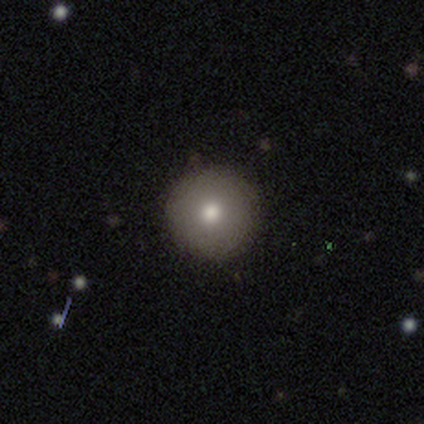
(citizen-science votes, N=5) A smooth galaxy with no disk features (60%) that is round (100%).

Vote fractions:
- Smooth or featured? smooth: 60% / featured or disk: 40% / star or artifact: 0%
- How rounded? round: 100% / in between: 0% / cigar-shaped: 0%
- Merging? none: 100% / minor disturbance: 0% / major disturbance: 0% / merger: 0%